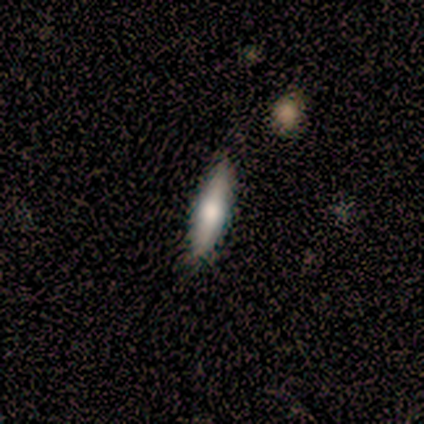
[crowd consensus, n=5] This appears to be a smooth galaxy with no disk features (60%) that is cigar-shaped (67%). Merging: none (100%).